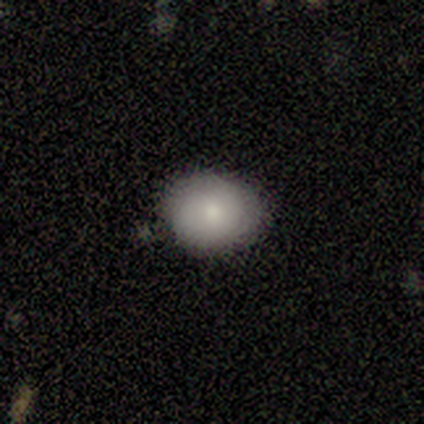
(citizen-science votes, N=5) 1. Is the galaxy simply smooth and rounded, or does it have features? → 60% smooth, 40% star or artifact, 0% featured or disk.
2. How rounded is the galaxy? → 67% round, 33% in between, 0% cigar-shaped.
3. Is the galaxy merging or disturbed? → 100% minor disturbance, 0% none, 0% major disturbance, 0% merger.